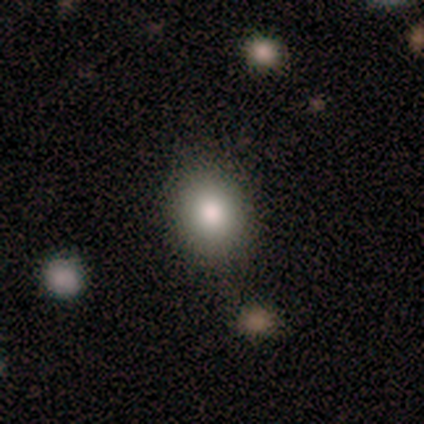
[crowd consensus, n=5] Smooth or featured? 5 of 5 (100%) said smooth. How rounded? 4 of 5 (80%) said round. Merging? 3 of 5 (60%) said none.